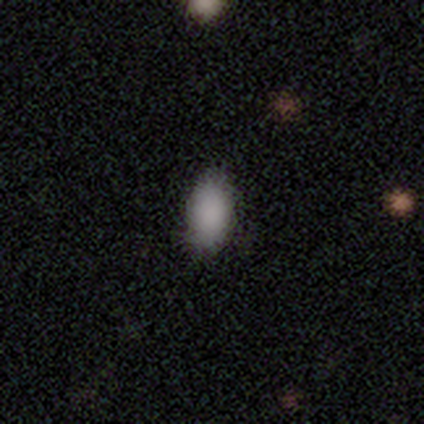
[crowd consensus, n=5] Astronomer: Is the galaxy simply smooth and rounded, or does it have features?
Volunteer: smooth — 80%.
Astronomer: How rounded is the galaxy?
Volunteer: in between — 100%.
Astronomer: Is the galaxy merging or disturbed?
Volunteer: none — 100%.